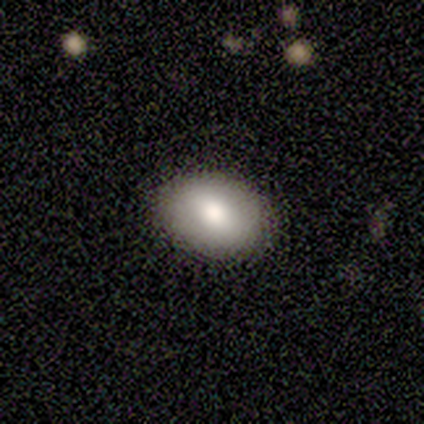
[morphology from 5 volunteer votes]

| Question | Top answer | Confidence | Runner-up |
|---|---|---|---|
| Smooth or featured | smooth | 100% | — |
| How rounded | in between | 60% | round (40%) |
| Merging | none | 80% | minor disturbance (20%) |